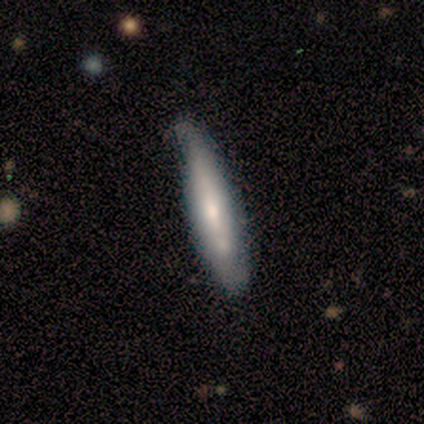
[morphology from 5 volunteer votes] Smooth or featured?
  - smooth: 60% *
  - featured or disk: 40%
  - star or artifact: 0%
How rounded?
  - cigar-shaped: 100% *
  - round: 0%
  - in between: 0%
Merging?
  - none: 80% *
  - major disturbance: 20%
  - minor disturbance: 0%
  - merger: 0%